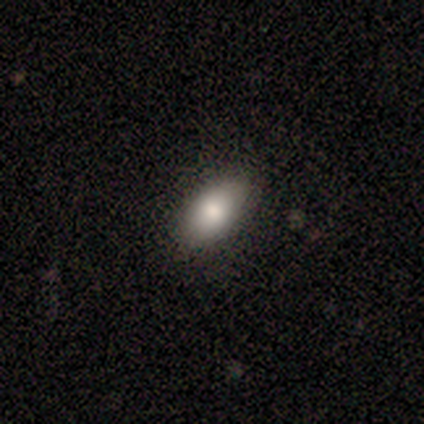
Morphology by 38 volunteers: This appears to be a smooth galaxy with no disk features (87%) that is in between round and cigar-shaped (91%). Merging: none (84%).